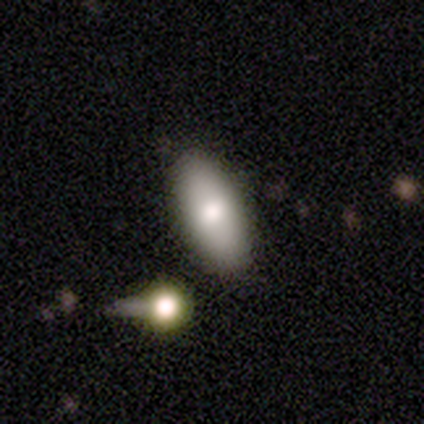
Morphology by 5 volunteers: Smooth or featured?
  - smooth: 80% *
  - featured or disk: 20%
  - star or artifact: 0%
How rounded?
  - in between: 100% *
  - round: 0%
  - cigar-shaped: 0%
Merging?
  - none: 100% *
  - minor disturbance: 0%
  - major disturbance: 0%
  - merger: 0%